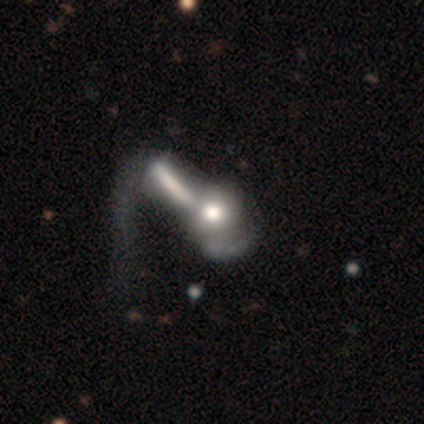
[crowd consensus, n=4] A featured or disk galaxy (75%) with a weak bar (50%, tied with no), 1 (100%) tight (100%) spiral arms (50%, tied with no) and a large central bulge (50%, tied with moderate). Merging: major disturbance (50%).